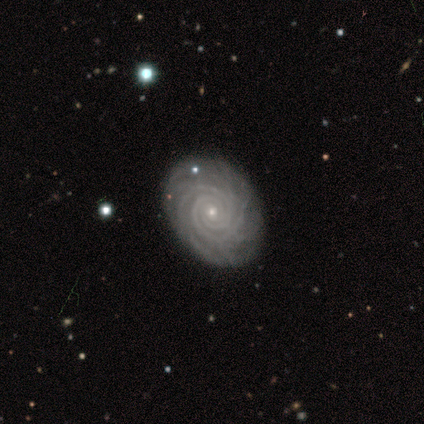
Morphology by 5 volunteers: A featured or disk galaxy (100%) with no bar (80%), 2 (20%, tied with 3, 4, more than 4 and can't tell) tight (80%) spiral arms (100%) and a small central bulge (80%).

Vote fractions:
- Smooth or featured? featured or disk: 100% / smooth: 0% / star or artifact: 0%
- Edge-on disk? no: 100% / yes: 0%
- Bar? no: 80% / weak: 20% / strong: 0%
- Spiral arms? yes: 100% / no: 0%
- Spiral winding? tight: 80% / medium: 20% / loose: 0%
- Spiral arm count? 2: 20% (tied) / 3: 20% (tied) / 4: 20% (tied) / more than 4: 20% (tied) / can't tell: 20% (tied) / 1: 0%
- Bulge size? small: 80% / none: 20% / dominant: 0% / large: 0% / moderate: 0%
- Merging? none: 100% / minor disturbance: 0% / major disturbance: 0% / merger: 0%